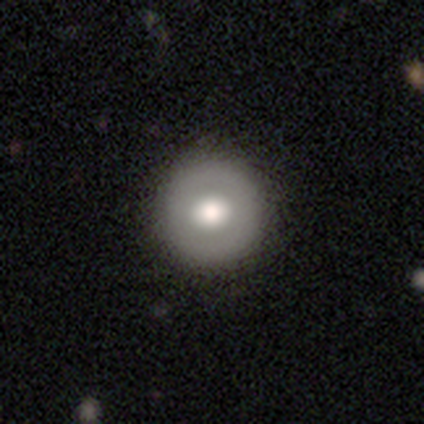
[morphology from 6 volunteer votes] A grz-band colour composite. It shows a featured or disk galaxy (67%) viewed edge-on (50%, tied with no) with a rounded central bulge (100%). Merging: none (67%).